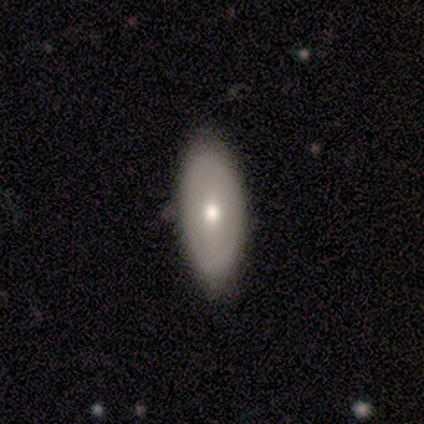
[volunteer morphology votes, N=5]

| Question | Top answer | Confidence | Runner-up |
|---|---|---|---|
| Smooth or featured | smooth | 80% | featured or disk (20%) |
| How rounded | in between | 100% | — |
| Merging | none | 80% | minor disturbance (20%) |